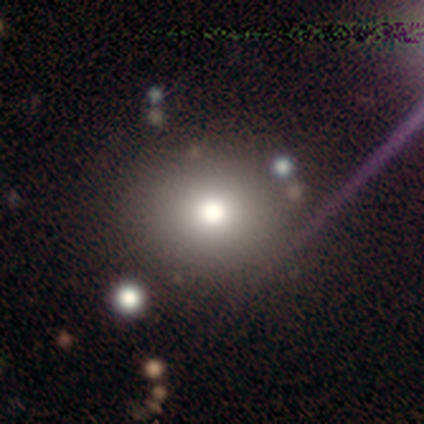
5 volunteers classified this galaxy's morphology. smooth 60%, featured or disk 20%, star or artifact 20%. Down the decision tree: how rounded — round (67%); merging — none (75%).